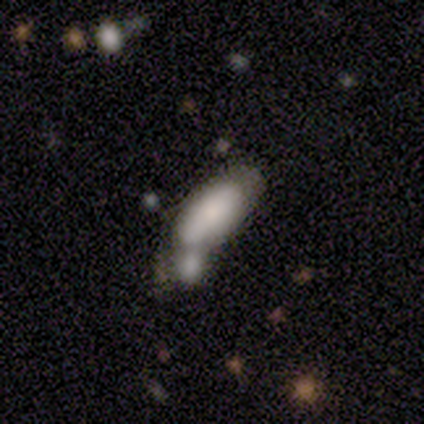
Volunteers were most divided on "smooth or featured": smooth: 71%, featured or disk: 29%, star or artifact: 0%. More confident: how rounded — in between (100%); merging — merger (71%).